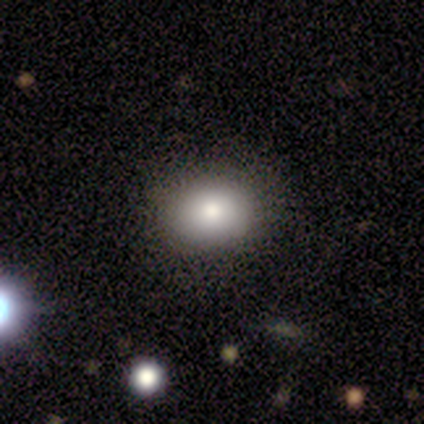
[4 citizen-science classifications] smooth_or_featured: smooth (p=1.00)
how_rounded: in between (p=1.00)
merging: none (p=1.00)